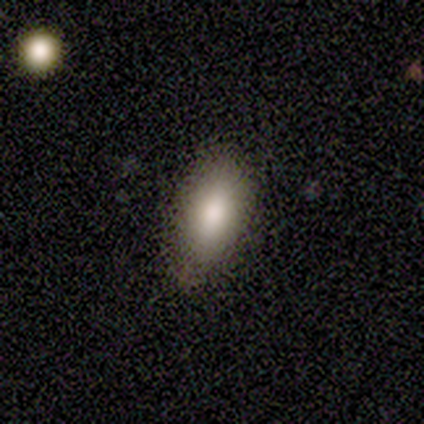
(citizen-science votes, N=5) smooth_or_featured: smooth (p=0.80) [alt: featured or disk p=0.20]
how_rounded: in between (p=1.00)
merging: none (p=0.60) [alt: minor disturbance p=0.40]